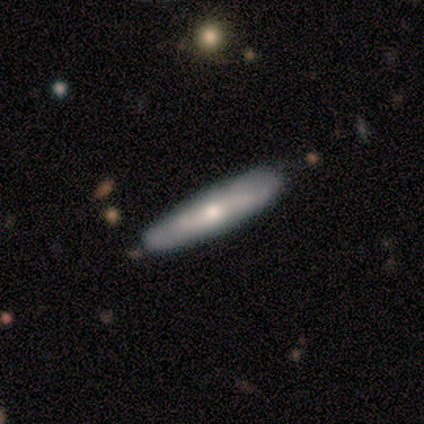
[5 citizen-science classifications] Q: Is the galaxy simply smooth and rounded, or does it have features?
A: smooth — 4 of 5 (80%).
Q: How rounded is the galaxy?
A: cigar-shaped — 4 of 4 (100%).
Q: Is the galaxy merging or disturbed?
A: none — 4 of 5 (80%).